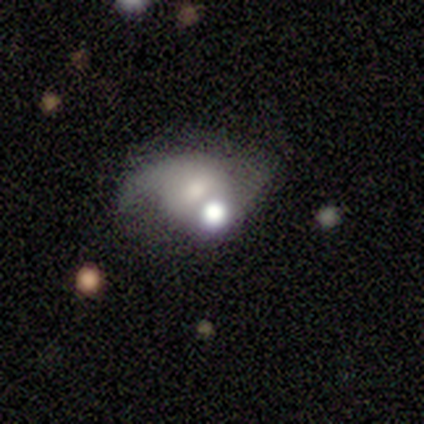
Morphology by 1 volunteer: Smooth or featured: smooth — 100%
How rounded: in between — 100%
Merging: merger — 100%